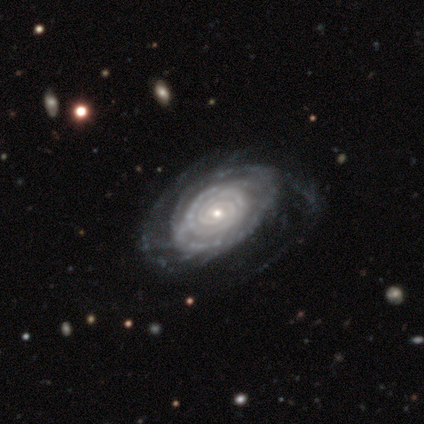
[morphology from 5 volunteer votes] featured or disk 60%, smooth 20%, star or artifact 20%. Down the decision tree: edge-on disk — no (100%); bar — strong (33%, tied with weak and no); spiral arms — yes (100%); spiral arm count — 2 (33%, tied with 3 and more than 4); spiral winding — tight (100%); bulge size — small (67%); merging — none (50%).